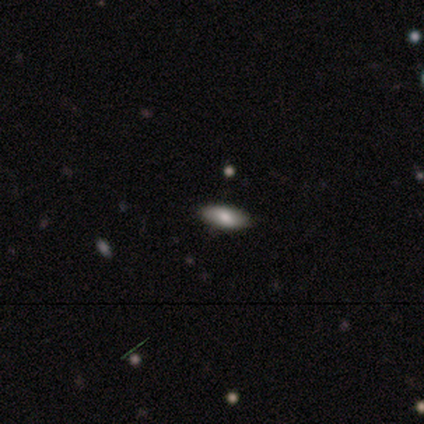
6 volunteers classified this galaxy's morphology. Smooth or featured?
  - smooth: 100% *
  - featured or disk: 0%
  - star or artifact: 0%
How rounded?
  - in between: 83% *
  - cigar-shaped: 17%
  - round: 0%
Merging?
  - none: 100% *
  - minor disturbance: 0%
  - major disturbance: 0%
  - merger: 0%